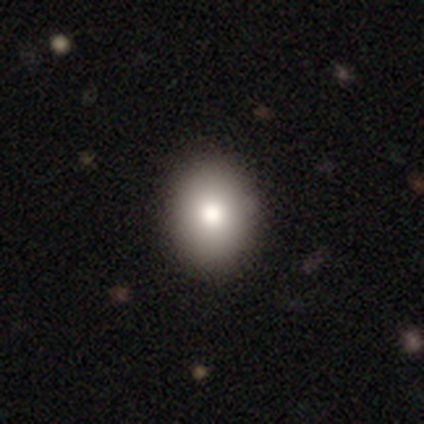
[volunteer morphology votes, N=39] Smooth or featured? 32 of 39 (82%) said smooth. How rounded? 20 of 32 (62%) said in between. Merging? 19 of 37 (51%) said none.